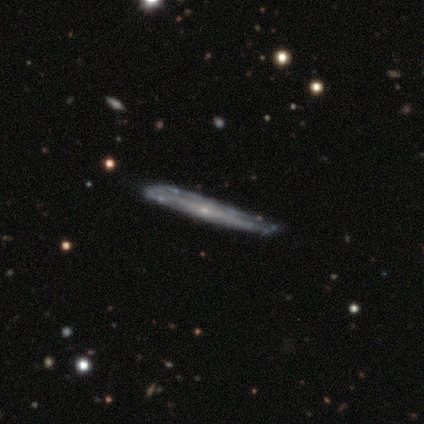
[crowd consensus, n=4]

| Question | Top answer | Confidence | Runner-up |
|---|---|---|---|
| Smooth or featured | featured or disk | 100% | — |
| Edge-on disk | yes | 100% | — |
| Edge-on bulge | rounded | 50% | boxy (25%) |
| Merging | none | 100% | — |